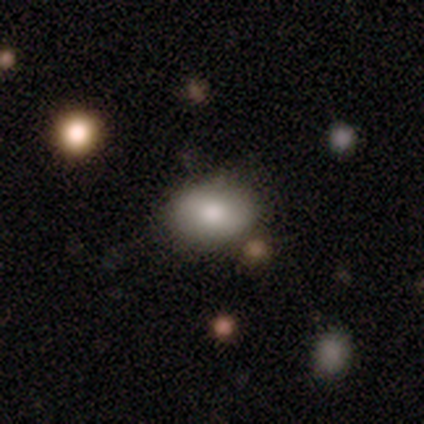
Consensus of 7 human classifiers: smooth-or-featured: smooth: 71% | featured or disk: 29% | star or artifact: 0%
  how-rounded: in between: 80% | round: 20% | cigar-shaped: 0%
  merging: none: 71% | minor disturbance: 29% | major disturbance: 0% | merger: 0%